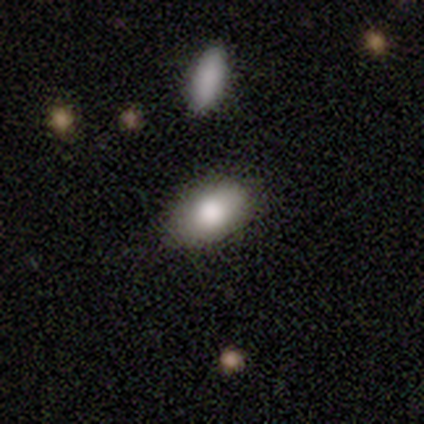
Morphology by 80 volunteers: A smooth galaxy with no disk features (89%) that is in between round and cigar-shaped (90%).

Vote fractions:
- Smooth or featured? smooth: 89% / featured or disk: 10% / star or artifact: 1%
- How rounded? in between: 90% / round: 10% / cigar-shaped: 0%
- Merging? none: 43% / merger: 9% / minor disturbance: 6% / major disturbance: 0%